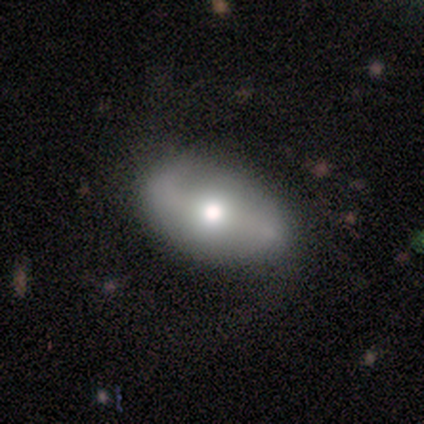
Smooth or featured? smooth (62%)
How rounded? in between (80%)
Merging? none (88%)